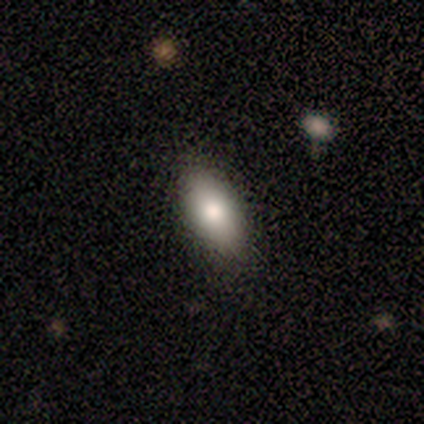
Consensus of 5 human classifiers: smooth 80%, star or artifact 20%, featured or disk 0%. Down the decision tree: how rounded — in between (100%); merging — none (100%).